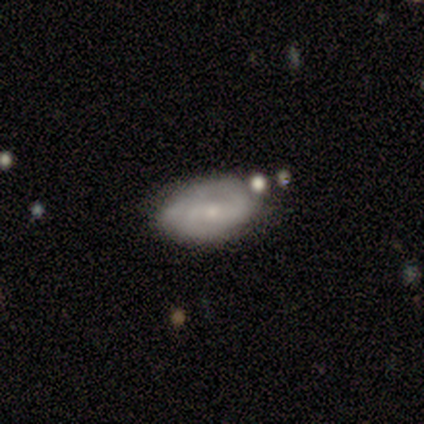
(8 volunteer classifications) A featured or disk galaxy (62%) with a weak bar (40%, tied with no), 2 (75%) medium (75%) spiral arms (80%) and a small central bulge (100%).

Vote fractions:
- Smooth or featured? featured or disk: 62% / smooth: 25% / star or artifact: 12%
- Edge-on disk? no: 100% / yes: 0%
- Bar? weak: 40% (tied) / no: 40% (tied) / strong: 20%
- Spiral arms? yes: 80% / no: 20%
- Spiral winding? medium: 75% / tight: 25% / loose: 0%
- Spiral arm count? 2: 75% / can't tell: 25% / 1: 0% / 3: 0% / 4: 0% / more than 4: 0%
- Bulge size? small: 100% / dominant: 0% / large: 0% / moderate: 0% / none: 0%
- Merging? none: 71% / minor disturbance: 29% / major disturbance: 0% / merger: 0%